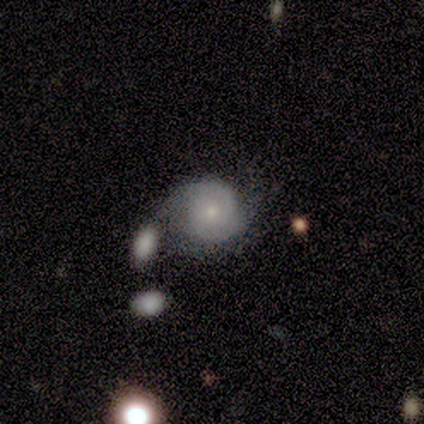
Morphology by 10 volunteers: This is likely a smooth galaxy (60%). How rounded: clearly round (83%). Merging: possibly none (50%).